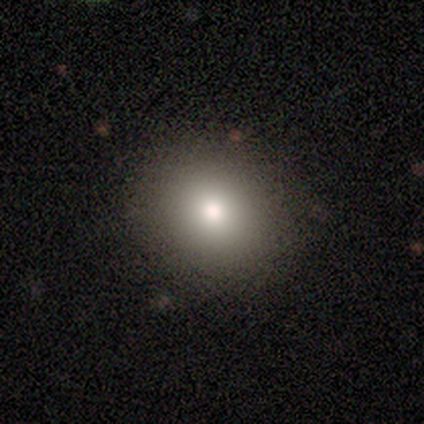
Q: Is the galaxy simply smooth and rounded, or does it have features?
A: smooth — 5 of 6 (83%).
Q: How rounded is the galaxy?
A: round — 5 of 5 (100%).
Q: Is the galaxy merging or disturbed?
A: none — 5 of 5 (100%).